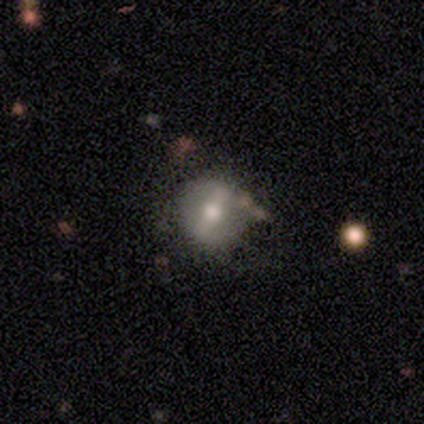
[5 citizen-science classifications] smooth_or_featured: featured or disk (p=0.60) [alt: smooth p=0.20]
disk_edge_on: no (p=1.00)
bar: strong (p=0.67) [alt: no p=0.33]
has_spiral_arms: no (p=1.00)
bulge_size: small (p=0.67) [alt: moderate p=0.33]
merging: none (p=0.50) [alt: major disturbance p=0.25]